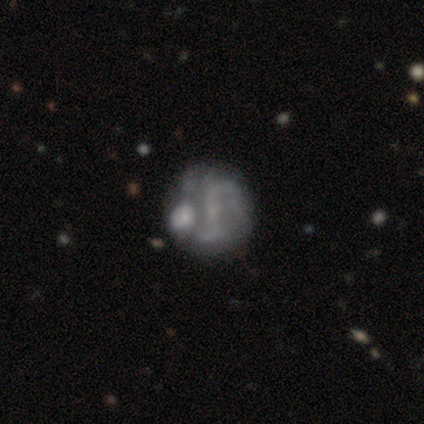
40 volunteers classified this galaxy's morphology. This appears to be a featured or disk galaxy (78%) with a strong bar (40%), 2 (85%) loose (50%) spiral arms (67%) and a small central bulge (47%). Merging: merger (40%).